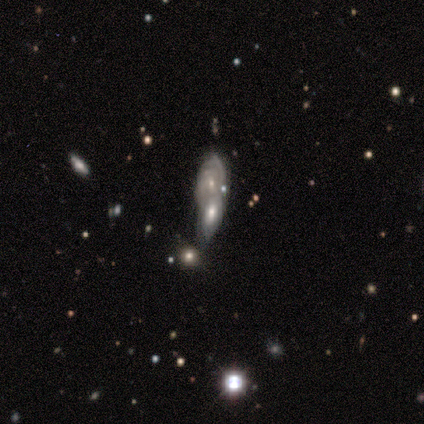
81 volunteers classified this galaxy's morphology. Smooth or featured? 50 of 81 (62%) said featured or disk. Edge-on disk? 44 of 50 (88%) said no. Bar? 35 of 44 (80%) said no. Spiral arms? 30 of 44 (68%) said yes. Spiral winding? 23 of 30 (77%) said tight. Spiral arm count? 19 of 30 (63%) said can't tell. Bulge size? 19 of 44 (43%) said small. Merging? 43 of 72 (60%) said merger.